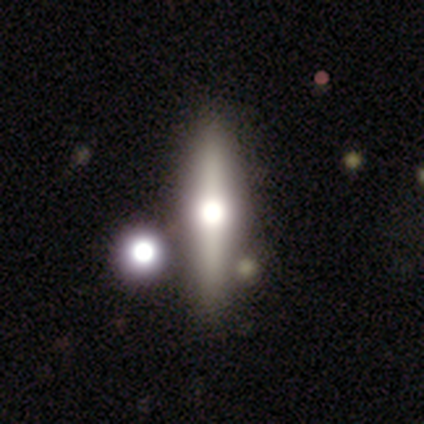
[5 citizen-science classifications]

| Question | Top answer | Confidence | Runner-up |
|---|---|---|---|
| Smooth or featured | featured or disk | 80% | smooth (20%) |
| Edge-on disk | yes | 100% | — |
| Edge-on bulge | rounded | 75% | none (25%) |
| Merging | none | 60% | merger (40%) |